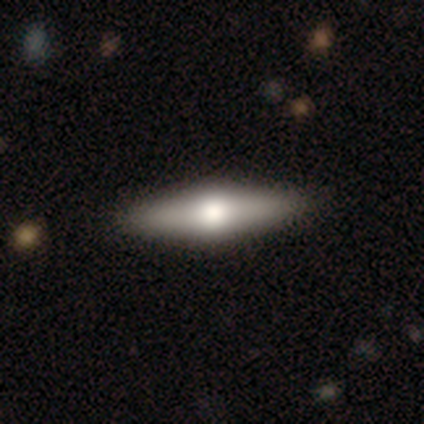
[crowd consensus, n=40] Overall: featured or disk (70%; smooth 30%). Edge-on disk: yes (93%). Edge-on bulge: rounded (96%). Merging: none (55%).